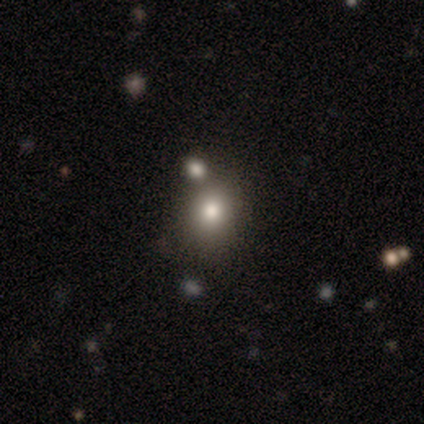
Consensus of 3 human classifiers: Smooth or featured? 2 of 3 (67%) said smooth. How rounded? 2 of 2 (100%) said round. Merging? 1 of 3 (33%, tied with minor disturbance and major disturbance) said none.